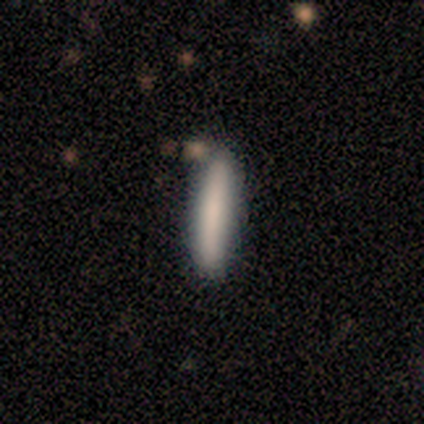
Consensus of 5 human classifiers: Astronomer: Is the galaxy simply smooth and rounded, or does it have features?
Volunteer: smooth — 80%.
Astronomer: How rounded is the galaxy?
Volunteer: cigar-shaped — 100%.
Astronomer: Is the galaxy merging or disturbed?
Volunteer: none — 80%.